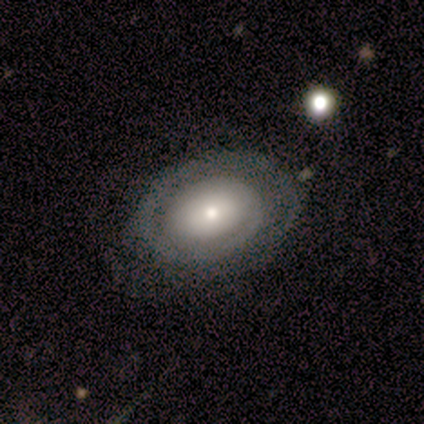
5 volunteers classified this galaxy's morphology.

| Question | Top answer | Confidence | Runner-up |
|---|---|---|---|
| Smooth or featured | featured or disk | 60% | smooth (40%) |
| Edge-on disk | no | 100% | — |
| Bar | no | 67% | weak (33%) |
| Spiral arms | yes | 67% | no (33%) |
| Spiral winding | tight | 100% | — |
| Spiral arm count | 1 | 100% | — |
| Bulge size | small | 100% | — |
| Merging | none | 60% | minor disturbance (40%) |